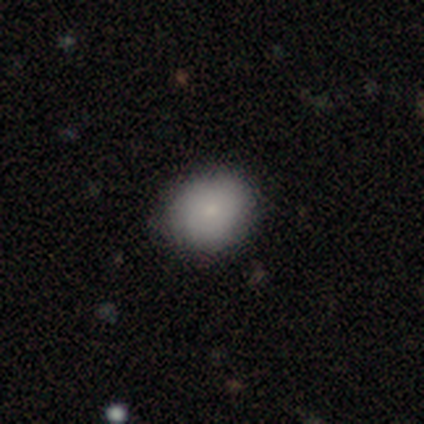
A smooth galaxy with no disk features (50%, tied with featured or disk) that is round (50%, tied with in between).

Vote fractions:
- Smooth or featured? smooth: 50% (tied) / featured or disk: 50% (tied) / star or artifact: 0%
- How rounded? round: 50% (tied) / in between: 50% (tied) / cigar-shaped: 0%
- Merging? none: 75% / minor disturbance: 25% / major disturbance: 0% / merger: 0%